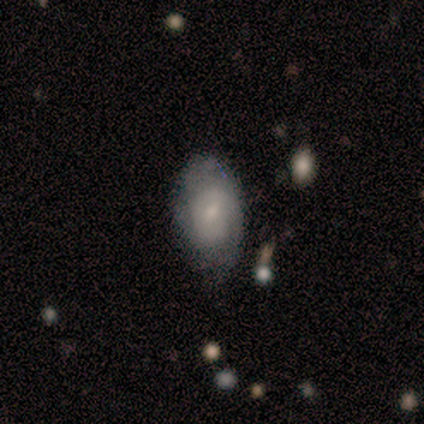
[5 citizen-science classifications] Overall: smooth (80%). How rounded: in between (75%). Merging: none (60%; minor disturbance 20%).